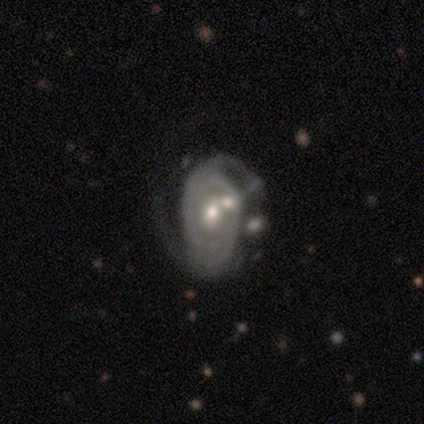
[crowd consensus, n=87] Smooth or featured?
  - featured or disk: 90% *
  - star or artifact: 7%
  - smooth: 3%
Edge-on disk?
  - no: 96% *
  - yes: 4%
Bar?
  - no: 75% *
  - weak: 19%
  - strong: 7%
Spiral arms?
  - yes: 91% *
  - no: 9%
Spiral winding?
  - tight: 46% *
  - medium: 41%
  - loose: 13%
Spiral arm count?
  - 2: 71% *
  - can't tell: 22%
  - 3: 6%
  - 1: 1%
  - 4: 0%
  - more than 4: 0%
Bulge size?
  - moderate: 59% *
  - small: 32%
  - large: 7%
  - dominant: 1%
  - none: 1%
Merging?
  - none: 44% *
  - merger: 28%
  - minor disturbance: 16%
  - major disturbance: 11%